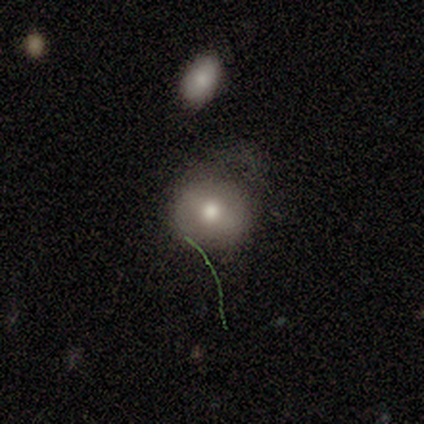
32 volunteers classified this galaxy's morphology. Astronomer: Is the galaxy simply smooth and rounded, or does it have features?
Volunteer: smooth — 59%.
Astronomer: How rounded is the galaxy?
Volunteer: round — 89%.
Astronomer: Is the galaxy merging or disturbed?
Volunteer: none — 52% (runner-up: minor disturbance, 37%).